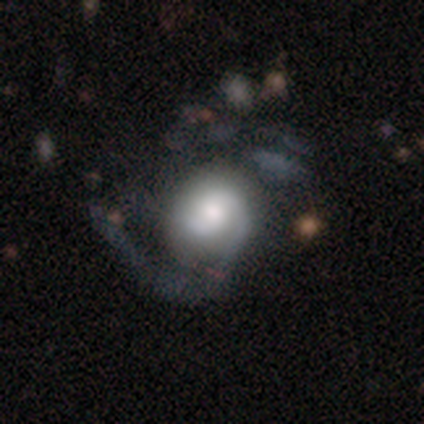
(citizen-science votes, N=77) This appears to be a featured or disk galaxy (77%) with no bar (71%), 2 (49%) medium (55%) spiral arms (80%) and a moderate central bulge (47%). Merging: major disturbance (26%).